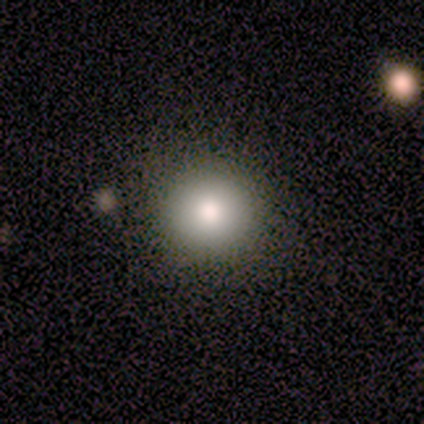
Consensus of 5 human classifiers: Volunteers were most divided on "how rounded": round: 80%, in between: 20%, cigar-shaped: 0%. More confident: smooth or featured — smooth (100%); merging — none (80%).